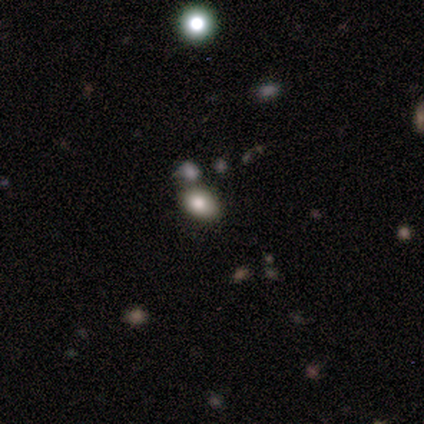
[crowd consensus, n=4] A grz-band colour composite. It shows a smooth galaxy with no disk features (50%, tied with star or artifact) that is in between round and cigar-shaped (100%). Merging: none (50%, tied with minor disturbance).